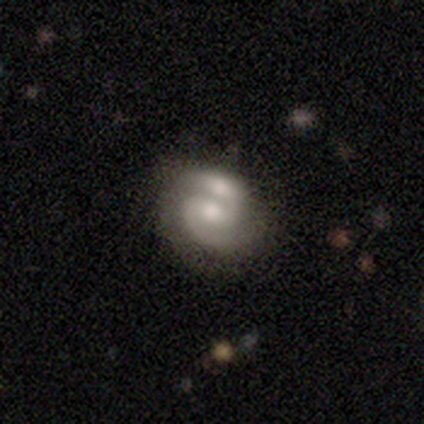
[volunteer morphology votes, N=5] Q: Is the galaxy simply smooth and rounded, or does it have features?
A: featured or disk — 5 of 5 (100%).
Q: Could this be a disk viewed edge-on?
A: no — 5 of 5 (100%).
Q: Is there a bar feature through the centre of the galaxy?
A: weak — 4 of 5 (80%).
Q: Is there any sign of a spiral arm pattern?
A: yes — 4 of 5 (80%).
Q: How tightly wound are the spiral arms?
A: medium — 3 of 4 (75%).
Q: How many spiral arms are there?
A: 2 — 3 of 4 (75%).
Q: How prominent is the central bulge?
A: moderate — 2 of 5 (40%, tied with small).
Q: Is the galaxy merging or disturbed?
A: merger — 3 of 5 (60%).